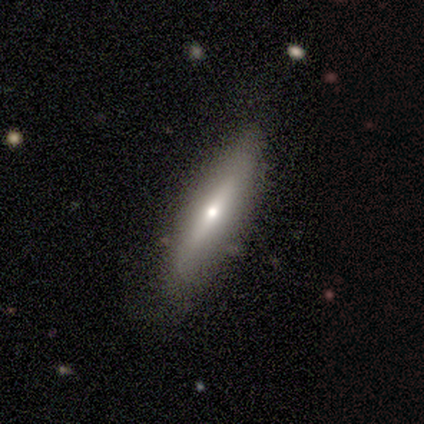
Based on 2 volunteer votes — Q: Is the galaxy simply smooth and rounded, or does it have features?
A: smooth — 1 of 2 (50%, tied with star or artifact).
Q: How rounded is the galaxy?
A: cigar-shaped — 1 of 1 (100%).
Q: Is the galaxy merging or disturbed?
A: none — 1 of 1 (100%).